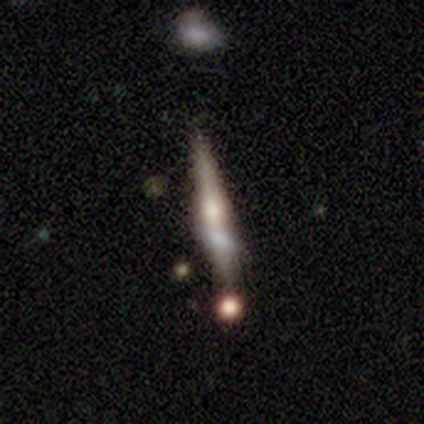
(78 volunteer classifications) This appears to be a featured or disk galaxy (59%) viewed edge-on (93%) with a rounded central bulge (93%). Merging: none (31%).